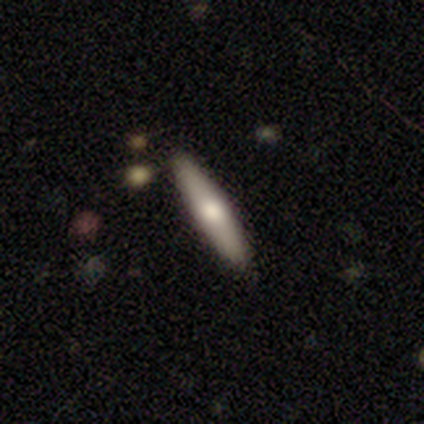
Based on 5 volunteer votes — Smooth or featured: featured or disk — 80% (star or artifact — 20%)
Edge-on disk: yes — 75% (no — 25%)
Edge-on bulge: rounded — 100%
Merging: none — 100%